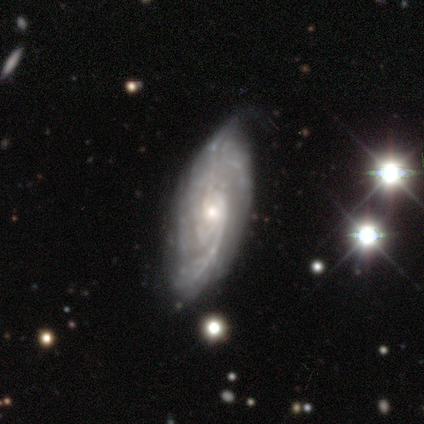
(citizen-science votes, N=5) smooth_or_featured: featured or disk (p=1.00)
disk_edge_on: no (p=1.00)
bar: no (p=1.00)
has_spiral_arms: yes (p=1.00)
spiral_winding: medium (p=0.60) [alt: tight p=0.40]
spiral_arm_count: can't tell (p=0.40) [alt: 2 p=0.20]
bulge_size: small (p=0.60) [alt: moderate p=0.40]
merging: none (p=0.60) [alt: minor disturbance p=0.20]